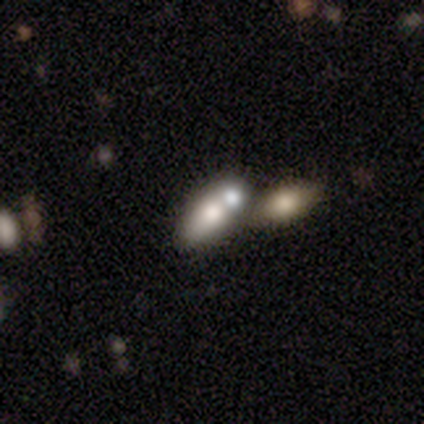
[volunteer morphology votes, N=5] Volunteers were most divided on "smooth or featured": smooth: 60%, featured or disk: 40%, star or artifact: 0%. More confident: how rounded — in between (100%); merging — merger (60%).